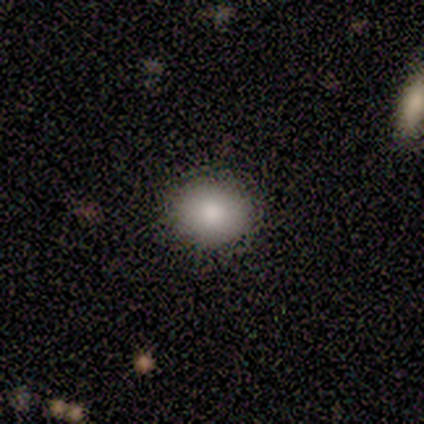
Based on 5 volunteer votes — Overall: smooth (100%). How rounded: round (80%). Merging: none (80%).